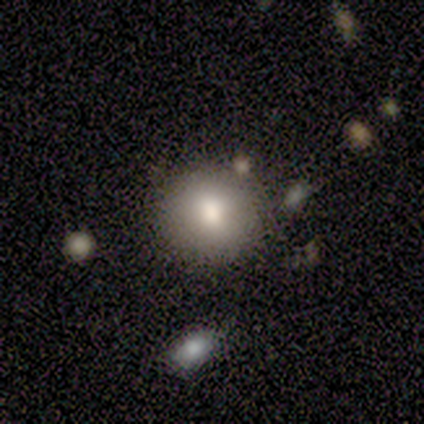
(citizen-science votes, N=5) smooth_or_featured: smooth (p=0.60) [alt: featured or disk p=0.20]
how_rounded: round (p=1.00)
merging: none (p=0.75) [alt: merger p=0.25]